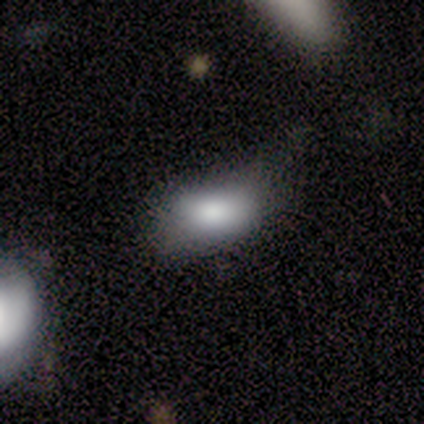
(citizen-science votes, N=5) Volunteers were most divided on "merging": none: 50%, minor disturbance: 25%, major disturbance: 25%, merger: 0%. More confident: how rounded — in between (100%); smooth or featured — smooth (80%).